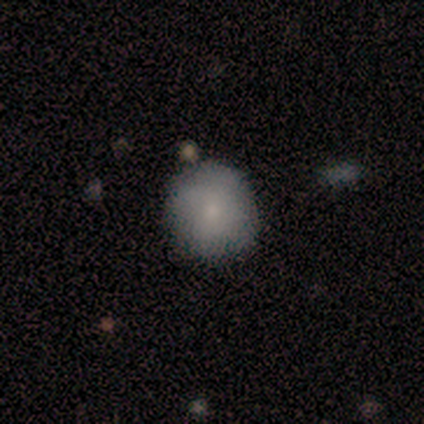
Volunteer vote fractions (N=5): Smooth or featured: smooth — 80% (star or artifact — 20%)
How rounded: round — 100%
Merging: none — 100%